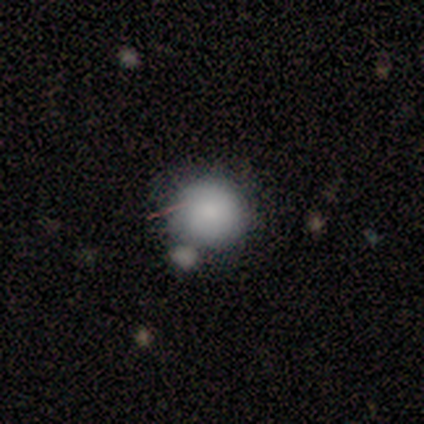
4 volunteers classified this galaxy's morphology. Smooth or featured?
  - smooth: 75% *
  - star or artifact: 25%
  - featured or disk: 0%
How rounded?
  - round: 100% *
  - in between: 0%
  - cigar-shaped: 0%
Merging?
  - none: 67% *
  - merger: 33%
  - minor disturbance: 0%
  - major disturbance: 0%